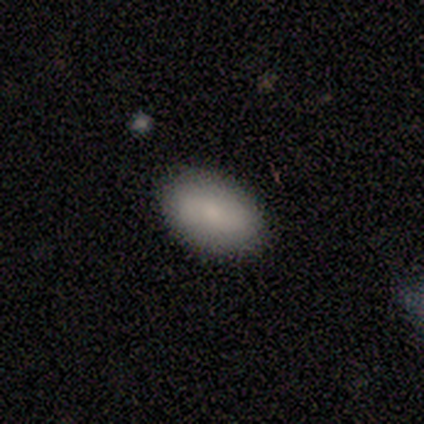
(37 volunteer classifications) Smooth or featured: smooth — 73% (featured or disk — 24%)
How rounded: in between — 96% (cigar-shaped — 4%)
Merging: none — 89% (minor disturbance — 8%)